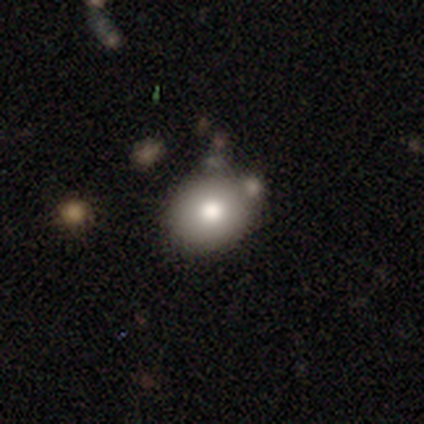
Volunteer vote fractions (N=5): Morphology: type=smooth (80%); roundness=round (75%); merging=none (40%).